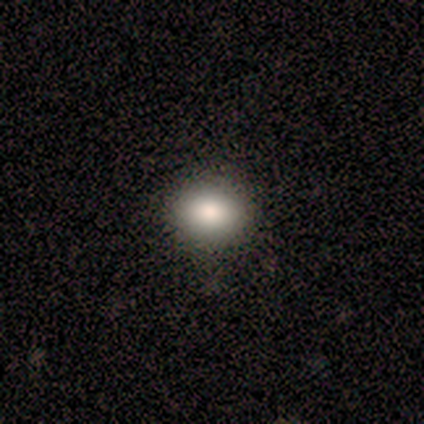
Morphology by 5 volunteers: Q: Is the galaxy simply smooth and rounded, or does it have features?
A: smooth — 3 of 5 (60%).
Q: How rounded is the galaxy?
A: in between — 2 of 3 (67%).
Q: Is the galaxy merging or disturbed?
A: none — 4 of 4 (100%).